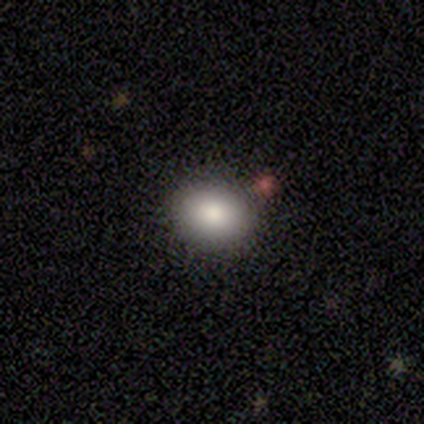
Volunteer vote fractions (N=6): smooth-or-featured: smooth: 50% | star or artifact: 33% | featured or disk: 17%
  how-rounded: round: 67% | in between: 33% | cigar-shaped: 0%
  merging: none: 75% | minor disturbance: 25% | major disturbance: 0% | merger: 0%